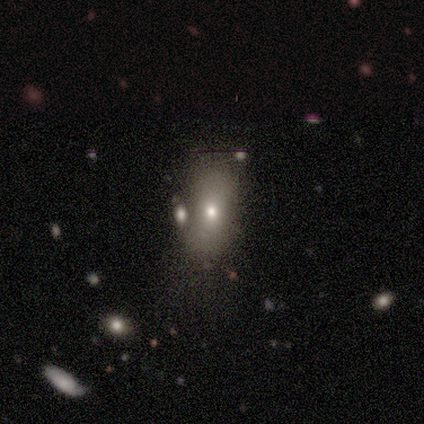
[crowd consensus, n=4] Q: Smooth or featured?
A: smooth (100%)
Q: How rounded?
A: in between (100%)
Q: Merging?
A: none (75%); runner-up: major disturbance (25%)